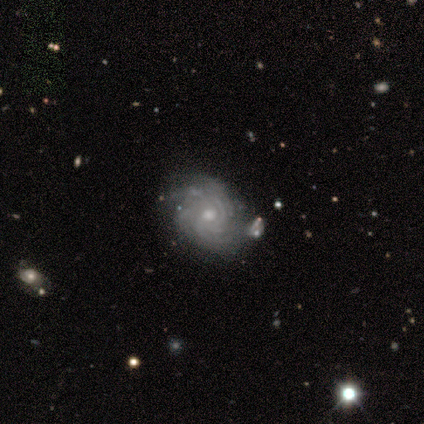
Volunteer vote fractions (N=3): A featured or disk galaxy (100%) with no bar (100%), tight (67%) spiral arms (100%) and a small central bulge (100%). Merging: none (67%).